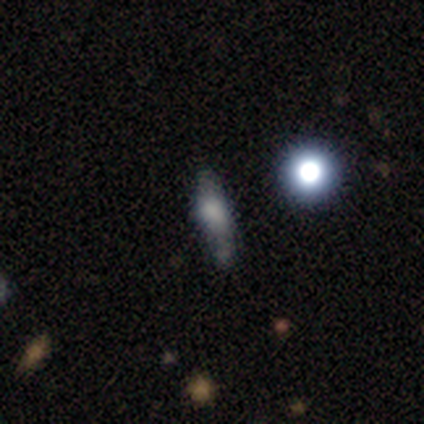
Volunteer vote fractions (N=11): A smooth galaxy with no disk features (82%) that is round (44%).

Vote fractions:
- Smooth or featured? smooth: 82% / featured or disk: 9% / star or artifact: 9%
- How rounded? round: 44% / cigar-shaped: 33% / in between: 22%
- Merging? none: 50% (tied) / minor disturbance: 50% (tied) / major disturbance: 0% / merger: 0%